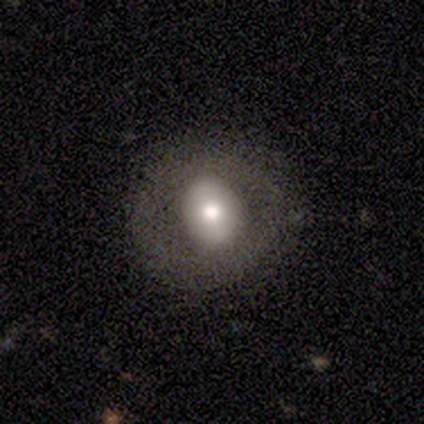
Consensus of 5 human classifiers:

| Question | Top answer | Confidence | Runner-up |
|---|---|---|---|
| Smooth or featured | smooth | 40% | tied: star or artifact (40%) |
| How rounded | round | 50% | tied: in between (50%) |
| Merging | none | 100% | — |